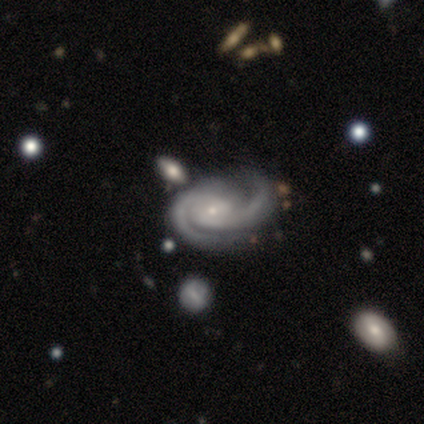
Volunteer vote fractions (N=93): Smooth or featured?
  - featured or disk: 96% *
  - star or artifact: 4%
  - smooth: 0%
Edge-on disk?
  - no: 100% *
  - yes: 0%
Bar?
  - no: 61% *
  - weak: 28%
  - strong: 11%
Spiral arms?
  - yes: 100% *
  - no: 0%
Spiral winding?
  - tight: 53% *
  - medium: 42%
  - loose: 6%
Spiral arm count?
  - 2: 89% *
  - 3: 7%
  - can't tell: 3%
  - 1: 1%
  - 4: 0%
  - more than 4: 0%
Bulge size?
  - small: 78% *
  - moderate: 16%
  - none: 6%
  - large: 1%
  - dominant: 0%
Merging?
  - none: 52% *
  - minor disturbance: 29%
  - major disturbance: 12%
  - merger: 7%